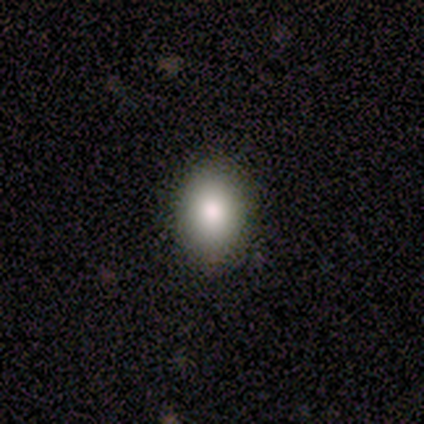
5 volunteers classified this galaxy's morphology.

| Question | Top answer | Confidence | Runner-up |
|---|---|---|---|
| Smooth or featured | smooth | 100% | — |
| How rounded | in between | 60% | round (40%) |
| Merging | none | 100% | — |